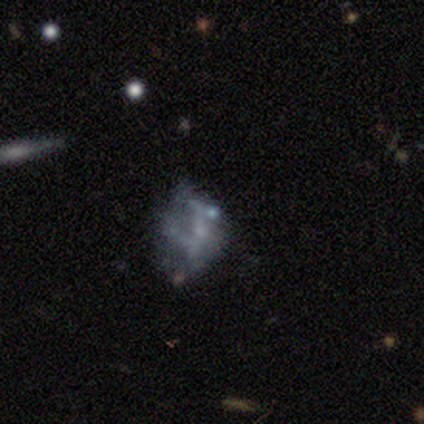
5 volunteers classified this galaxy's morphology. Q: Smooth or featured?
A: smooth (40%); tied with: star or artifact (40%)
Q: How rounded?
A: in between (100%)
Q: Merging?
A: none (33%); tied with: minor disturbance (33%); merger (33%)